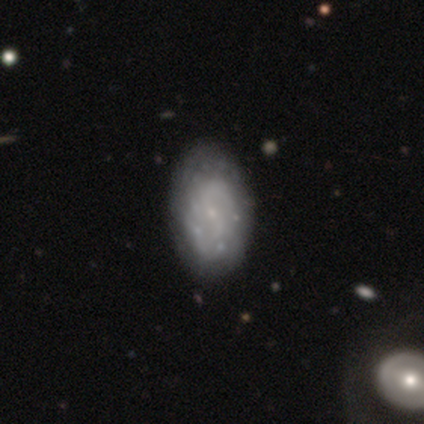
Smooth or featured?
  - featured or disk: 100% *
  - smooth: 0%
  - star or artifact: 0%
Edge-on disk?
  - no: 100% *
  - yes: 0%
Bar?
  - no: 80% *
  - weak: 20%
  - strong: 0%
Spiral arms?
  - yes: 60% *
  - no: 40%
Spiral winding?
  - tight: 33% * (tied)
  - medium: 33% * (tied)
  - loose: 33% * (tied)
Spiral arm count?
  - 2: 67% *
  - can't tell: 33%
  - 1: 0%
  - 3: 0%
  - 4: 0%
  - more than 4: 0%
Bulge size?
  - small: 100% *
  - dominant: 0%
  - large: 0%
  - moderate: 0%
  - none: 0%
Merging?
  - none: 40% * (tied)
  - minor disturbance: 40% * (tied)
  - merger: 20%
  - major disturbance: 0%